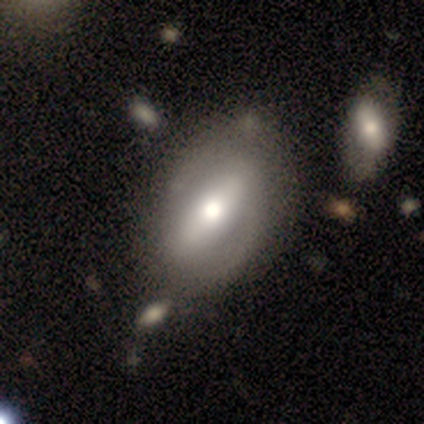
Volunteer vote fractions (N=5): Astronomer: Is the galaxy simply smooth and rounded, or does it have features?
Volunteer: featured or disk — 80%.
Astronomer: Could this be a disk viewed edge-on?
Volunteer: no — 75%.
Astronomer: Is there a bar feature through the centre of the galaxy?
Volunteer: strong — 100%.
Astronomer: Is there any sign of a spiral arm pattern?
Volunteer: yes — 100%.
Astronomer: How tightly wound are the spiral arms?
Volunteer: tight — 67%.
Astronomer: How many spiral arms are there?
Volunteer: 2 — 100%.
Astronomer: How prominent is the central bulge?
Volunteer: moderate — 67%.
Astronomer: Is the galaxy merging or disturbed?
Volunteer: none — 80%.